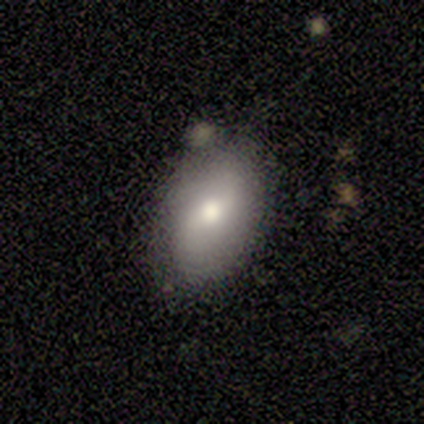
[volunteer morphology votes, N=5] Smooth or featured?
  - smooth: 80% *
  - featured or disk: 20%
  - star or artifact: 0%
How rounded?
  - in between: 100% *
  - round: 0%
  - cigar-shaped: 0%
Merging?
  - none: 100% *
  - minor disturbance: 0%
  - major disturbance: 0%
  - merger: 0%